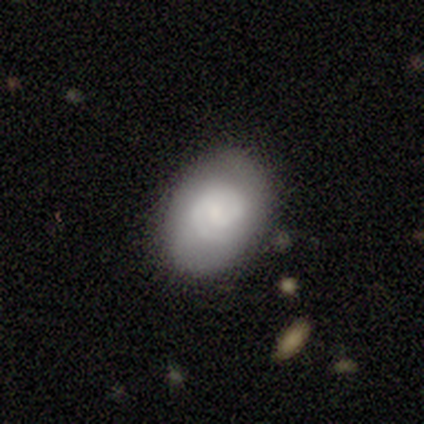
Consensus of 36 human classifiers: Smooth or featured? 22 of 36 (61%) said featured or disk. Edge-on disk? 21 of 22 (95%) said no. Bar? 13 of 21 (62%) said no. Spiral arms? 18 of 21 (86%) said yes. Spiral winding? 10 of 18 (56%) said tight. Spiral arm count? 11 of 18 (61%) said 2. Bulge size? 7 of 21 (33%) said moderate. Merging? 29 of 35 (83%) said none.